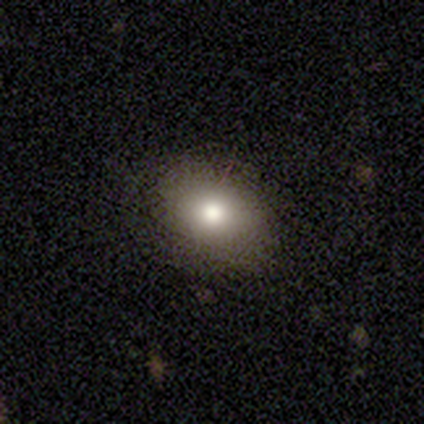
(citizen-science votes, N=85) A smooth galaxy with no disk features (76%) that is in between round and cigar-shaped (80%). Merging: none (87%).